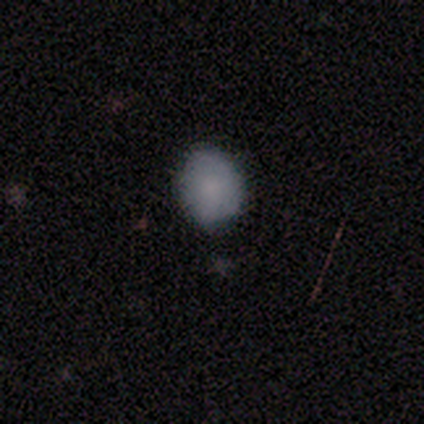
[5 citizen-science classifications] Morphology: type=smooth (80%); roundness=round (50%, tied with in between); merging=none (100%).